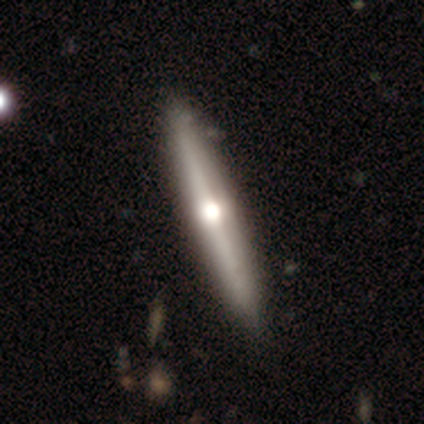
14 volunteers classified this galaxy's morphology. A featured or disk galaxy (93%) viewed edge-on (100%) with a rounded central bulge (92%).

Vote fractions:
- Smooth or featured? featured or disk: 93% / smooth: 7% / star or artifact: 0%
- Edge-on disk? yes: 100% / no: 0%
- Edge-on bulge? rounded: 92% / none: 8% / boxy: 0%
- Merging? none: 100% / minor disturbance: 0% / major disturbance: 0% / merger: 0%